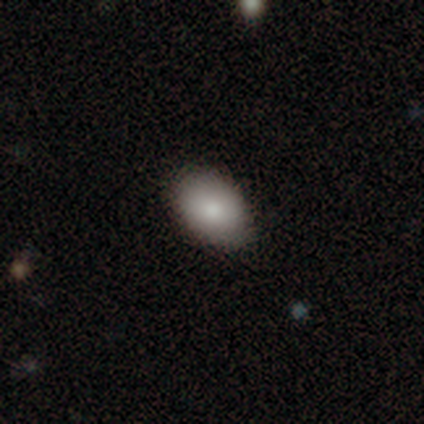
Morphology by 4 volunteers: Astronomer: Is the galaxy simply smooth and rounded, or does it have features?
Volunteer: smooth — 75%.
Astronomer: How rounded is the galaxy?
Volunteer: in between — 100%.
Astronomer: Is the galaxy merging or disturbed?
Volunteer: none — 100%.